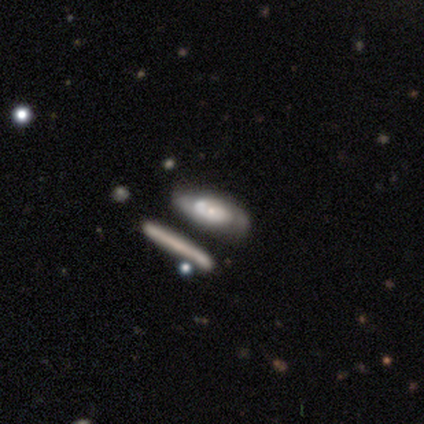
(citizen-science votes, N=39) Smooth or featured: featured or disk — 54% (smooth — 41%)
Edge-on disk: no — 81% (yes — 19%)
Bar: no — 76% (weak — 24%)
Spiral arms: yes — 71% (no — 29%)
Spiral winding: tight — 50% (medium — 42%)
Spiral arm count: can't tell — 58% (2 — 42%)
Bulge size: moderate — 41% (tied with small — 41%)
Merging: none — 76% (minor disturbance — 14%)